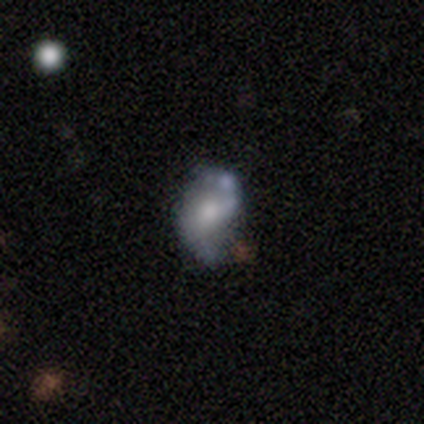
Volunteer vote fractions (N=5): Smooth or featured? featured or disk (40%, tied with star or artifact)
Edge-on disk? no (100%)
Bar? weak (50%, tied with no)
Spiral arms? yes (50%, tied with no)
Spiral winding? loose (100%)
Spiral arm count? 2 (100%)
Bulge size? moderate (100%)
Merging? minor disturbance (67%)